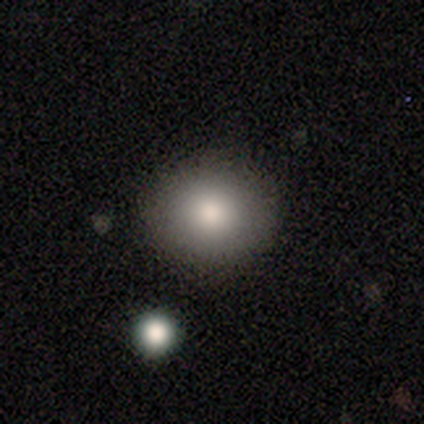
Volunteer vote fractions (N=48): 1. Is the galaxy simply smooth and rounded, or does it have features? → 79% smooth, 15% star or artifact, 6% featured or disk.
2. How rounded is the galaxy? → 84% round, 16% in between, 0% cigar-shaped.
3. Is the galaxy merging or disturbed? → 90% none, 5% minor disturbance, 2% major disturbance, 2% merger.